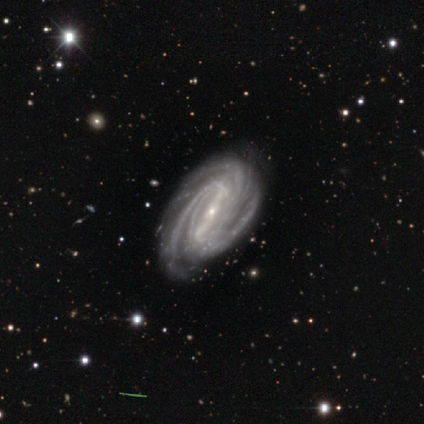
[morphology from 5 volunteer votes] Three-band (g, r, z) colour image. It shows a featured or disk galaxy (100%) with a strong bar (60%), 3 (40%, tied with 4) tight (100%) spiral arms (100%) and a small central bulge (100%). Merging: none (100%).